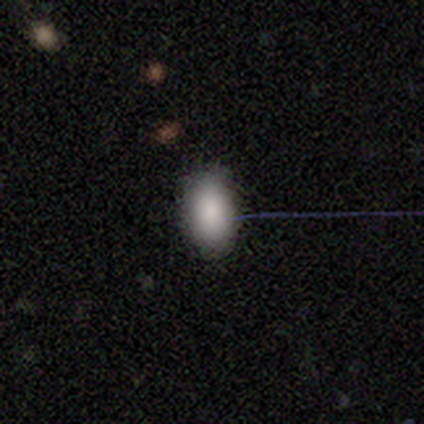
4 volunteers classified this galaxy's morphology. Overall: smooth (50%; featured or disk 25%). How rounded: round (50%, tied with in between). Merging: none (100%).